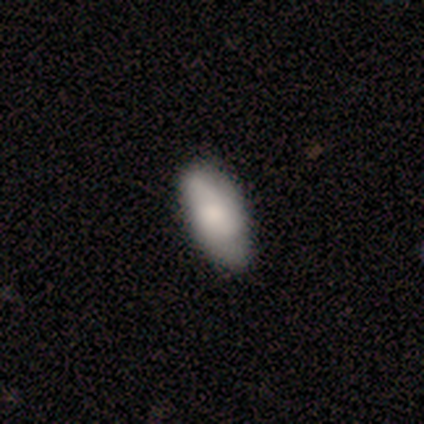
smooth_or_featured: smooth (p=0.68) [alt: featured or disk p=0.28]
how_rounded: in between (p=0.93) [alt: cigar-shaped p=0.07]
merging: none (p=0.50) [alt: minor disturbance p=0.08]